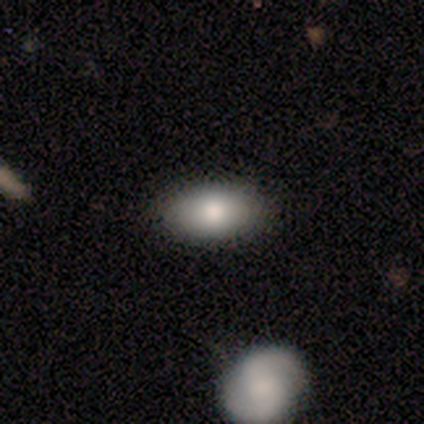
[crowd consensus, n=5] smooth-or-featured: smooth: 80% | featured or disk: 20% | star or artifact: 0%
  how-rounded: in between: 100% | round: 0% | cigar-shaped: 0%
  merging: none: 80% | minor disturbance: 20% | major disturbance: 0% | merger: 0%